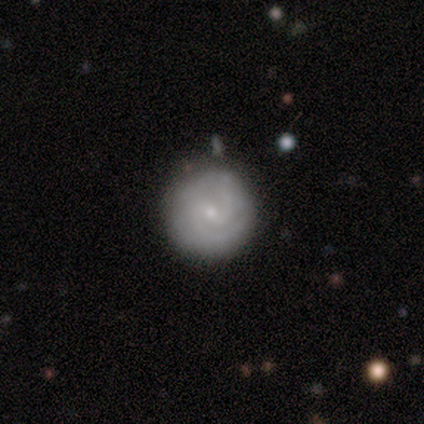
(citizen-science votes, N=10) Smooth or featured? featured or disk (80%)
Edge-on disk? no (100%)
Bar? no (62%)
Spiral arms? yes (100%)
Spiral winding? medium (62%)
Spiral arm count? 2 (50%, tied with can't tell)
Bulge size? small (75%)
Merging? none (90%)